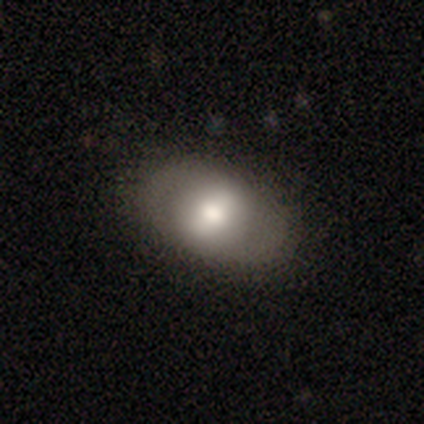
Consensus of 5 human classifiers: Smooth or featured: smooth — 60% (featured or disk — 40%)
How rounded: in between — 67% (round — 33%)
Merging: none — 80% (minor disturbance — 20%)